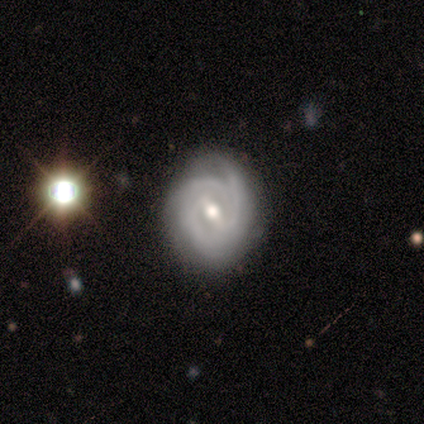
Smooth or featured?
  - featured or disk: 92% *
  - star or artifact: 8%
  - smooth: 0%
Edge-on disk?
  - no: 100% *
  - yes: 0%
Bar?
  - strong: 45% * (tied)
  - weak: 45% * (tied)
  - no: 9%
Spiral arms?
  - yes: 91% *
  - no: 9%
Spiral winding?
  - medium: 50% *
  - tight: 30%
  - loose: 20%
Spiral arm count?
  - 3: 30% * (tied)
  - can't tell: 30% * (tied)
  - 1: 20%
  - 2: 20%
  - 4: 0%
  - more than 4: 0%
Bulge size?
  - moderate: 55% *
  - small: 27%
  - large: 9%
  - none: 9%
  - dominant: 0%
Merging?
  - none: 73% *
  - minor disturbance: 27%
  - major disturbance: 0%
  - merger: 0%